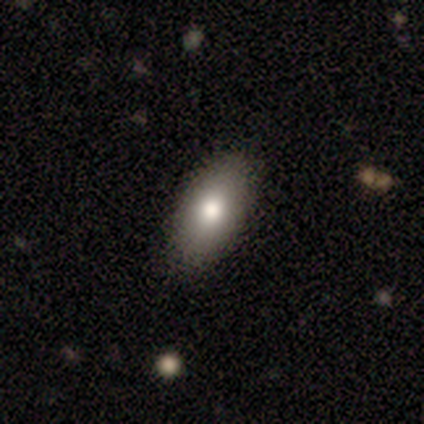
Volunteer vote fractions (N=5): This appears to be a smooth galaxy with no disk features (80%) that is in between round and cigar-shaped (75%). Merging: none (50%).